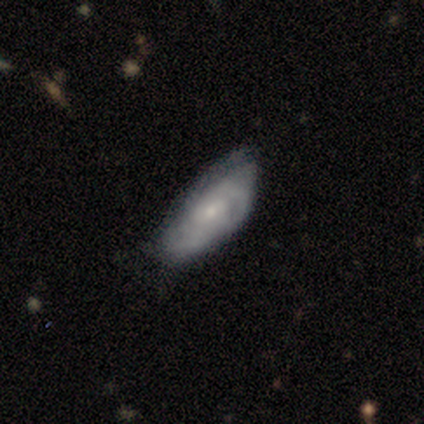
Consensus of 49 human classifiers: Smooth or featured? 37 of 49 (76%) said featured or disk. Edge-on disk? 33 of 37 (89%) said no. Bar? 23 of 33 (70%) said no. Spiral arms? 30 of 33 (91%) said yes. Spiral winding? 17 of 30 (57%) said tight. Spiral arm count? 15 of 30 (50%) said can't tell. Bulge size? 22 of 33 (67%) said small. Merging? 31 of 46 (67%) said none.